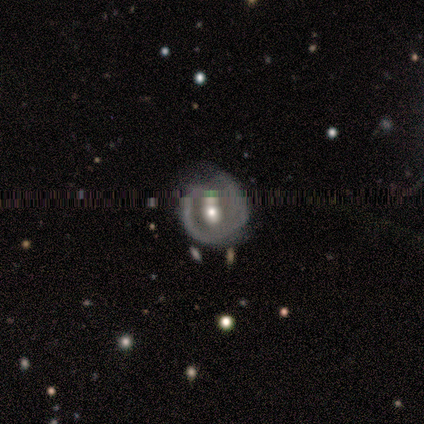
This appears to be a featured or disk galaxy (71%) with no bar (80%), 2 (67%) tight (67%) spiral arms (60%) and a moderate central bulge (60%). Merging: none (71%).